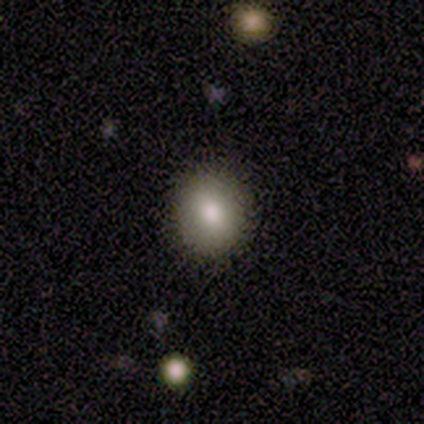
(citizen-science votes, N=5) smooth-or-featured: smooth: 80% | featured or disk: 20% | star or artifact: 0%
  how-rounded: round: 100% | in between: 0% | cigar-shaped: 0%
  merging: none: 80% | minor disturbance: 20% | major disturbance: 0% | merger: 0%